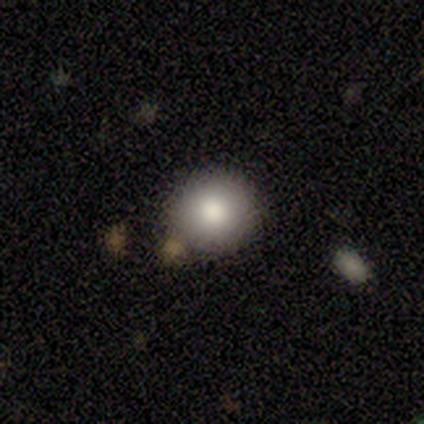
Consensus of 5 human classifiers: A smooth galaxy with no disk features (100%) that is round (100%).

Vote fractions:
- Smooth or featured? smooth: 100% / featured or disk: 0% / star or artifact: 0%
- How rounded? round: 100% / in between: 0% / cigar-shaped: 0%
- Merging? none: 100% / minor disturbance: 0% / major disturbance: 0% / merger: 0%